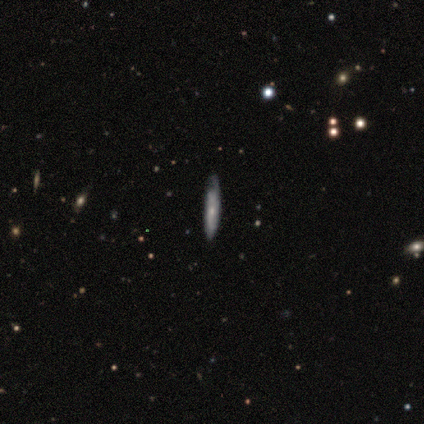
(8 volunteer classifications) Q: Smooth or featured?
A: smooth (75%); runner-up: featured or disk (25%)
Q: How rounded?
A: cigar-shaped (100%)
Q: Merging?
A: none (62%); runner-up: minor disturbance (38%)